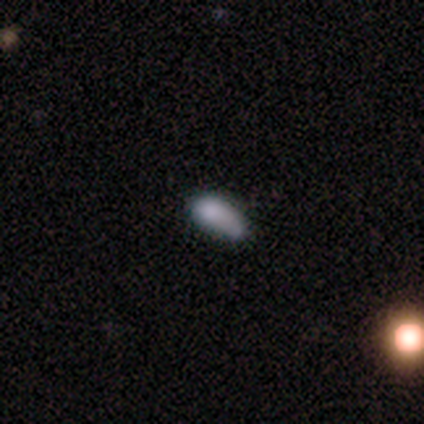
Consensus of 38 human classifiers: Volunteers were most divided on "merging" (2-way tie): none: 36%, minor disturbance: 36%, merger: 18%, major disturbance: 9%. More confident: how rounded — in between (80%); smooth or featured — smooth (66%).